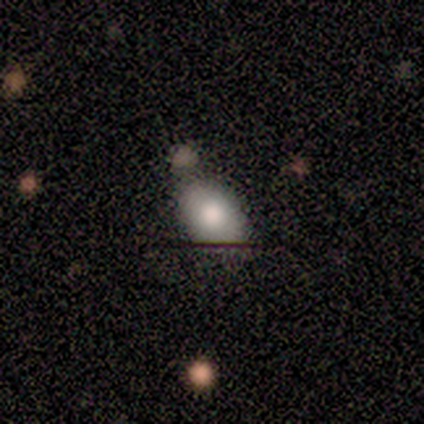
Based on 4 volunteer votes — Smooth or featured? 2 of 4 (50%, tied with star or artifact) said smooth. How rounded? 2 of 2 (100%) said in between. Merging? 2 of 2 (100%) said none.